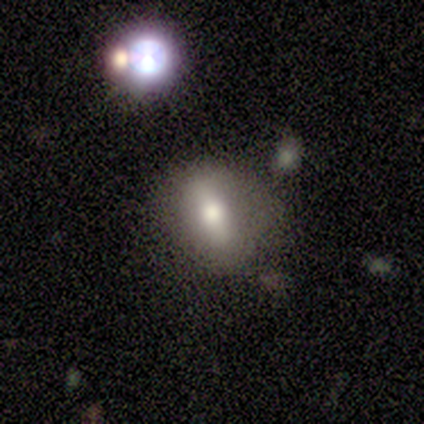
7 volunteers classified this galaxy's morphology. Overall: smooth (57%; featured or disk 43%). How rounded: in between (100%). Merging: none (71%).